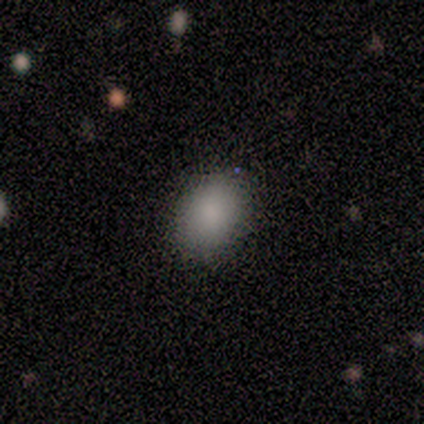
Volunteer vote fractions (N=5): Smooth or featured?
  - smooth: 80% *
  - star or artifact: 20%
  - featured or disk: 0%
How rounded?
  - in between: 75% *
  - round: 25%
  - cigar-shaped: 0%
Merging?
  - none: 100% *
  - minor disturbance: 0%
  - major disturbance: 0%
  - merger: 0%